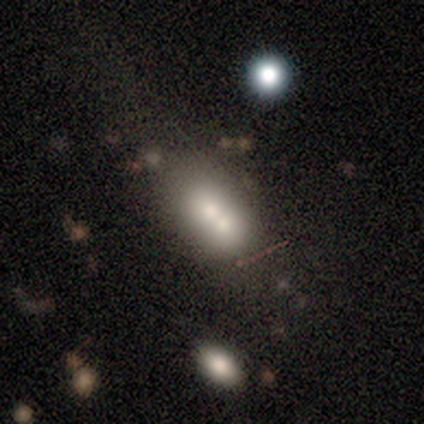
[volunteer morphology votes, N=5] Smooth or featured: featured or disk — 40% (tied with star or artifact — 40%)
Edge-on disk: no — 100%
Bar: no — 100%
Spiral arms: no — 100%
Bulge size: large — 50% (tied with moderate — 50%)
Merging: merger — 67% (none — 33%)